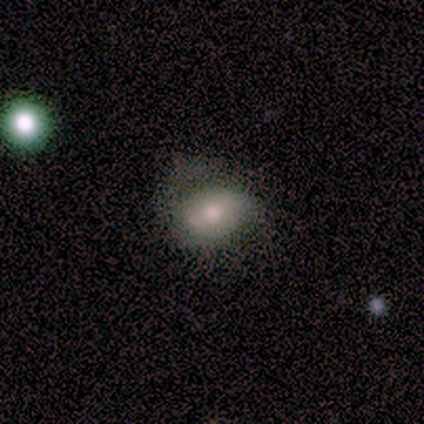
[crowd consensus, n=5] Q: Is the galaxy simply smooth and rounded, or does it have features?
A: smooth — 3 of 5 (60%).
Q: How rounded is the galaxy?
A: in between — 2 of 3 (67%).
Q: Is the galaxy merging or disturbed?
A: major disturbance — 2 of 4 (50%).